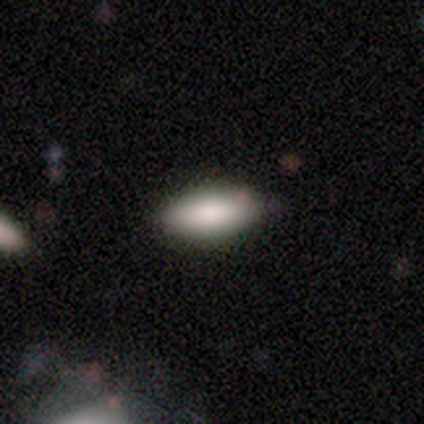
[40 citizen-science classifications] smooth-or-featured: smooth: 82% | featured or disk: 15% | star or artifact: 2%
  how-rounded: in between: 97% | cigar-shaped: 3% | round: 0%
  merging: none: 67% | merger: 8% | minor disturbance: 5% | major disturbance: 0%